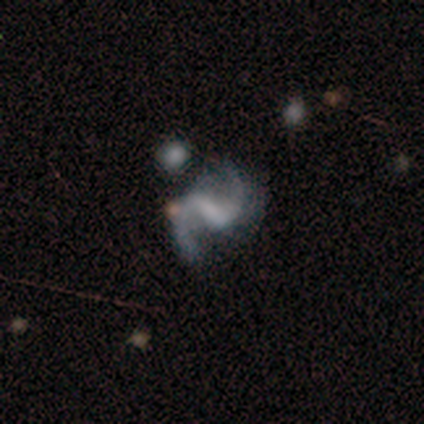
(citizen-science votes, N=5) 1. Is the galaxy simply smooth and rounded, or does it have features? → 80% featured or disk, 20% smooth, 0% star or artifact.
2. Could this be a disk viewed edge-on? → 100% no, 0% yes.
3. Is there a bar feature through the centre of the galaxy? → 50% strong (tied), 50% weak (tied), 0% no.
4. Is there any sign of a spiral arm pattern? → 100% yes, 0% no.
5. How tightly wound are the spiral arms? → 50% medium (tied), 50% loose (tied), 0% tight.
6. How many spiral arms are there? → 100% 2, 0% 1, 0% 3, 0% 4, 0% more than 4, 0% can't tell.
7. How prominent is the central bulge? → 50% moderate (tied), 50% none (tied), 0% dominant, 0% large, 0% small.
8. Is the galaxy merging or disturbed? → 80% none, 20% minor disturbance, 0% major disturbance, 0% merger.